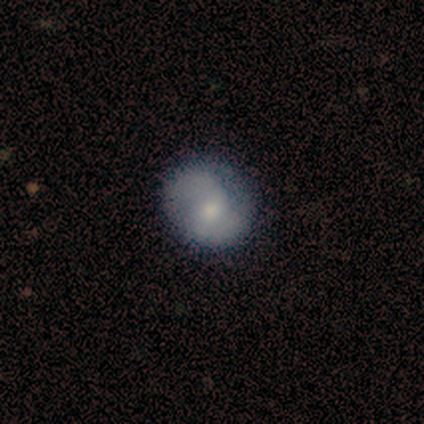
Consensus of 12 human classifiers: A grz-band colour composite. It shows a featured or disk galaxy (58%) with no bar (71%), 2 (100%) medium (100%) spiral arms (71%) and a moderate central bulge (57%). Merging: none (91%).